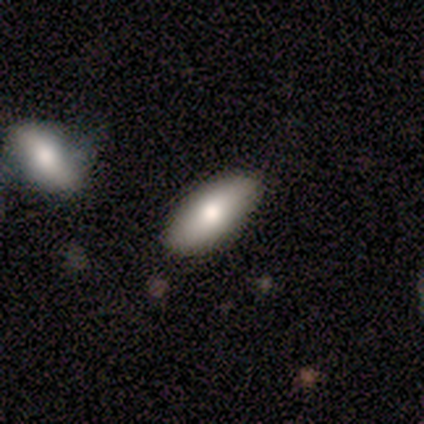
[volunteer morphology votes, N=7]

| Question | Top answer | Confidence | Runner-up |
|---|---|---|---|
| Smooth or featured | smooth | 43% | tied: featured or disk (43%) |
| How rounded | in between | 100% | — |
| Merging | none | 100% | — |